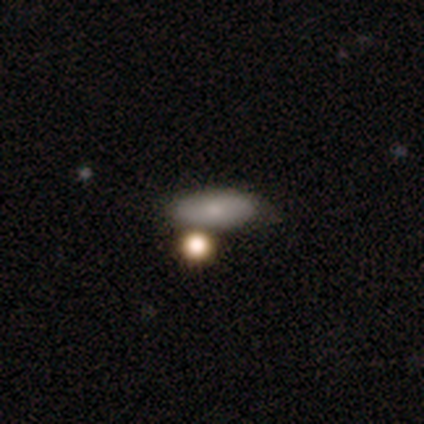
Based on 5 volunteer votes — smooth_or_featured: smooth (p=0.80) [alt: star or artifact p=0.20]
how_rounded: in between (p=1.00)
merging: none (p=0.75) [alt: minor disturbance p=0.25]